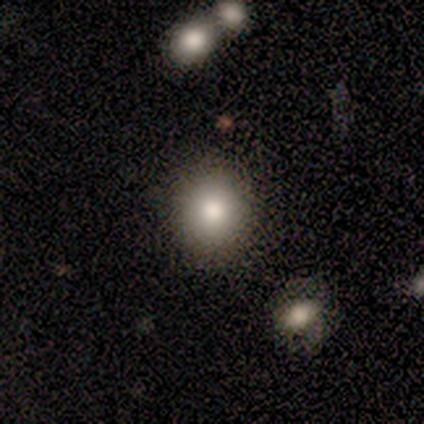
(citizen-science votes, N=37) A smooth galaxy with no disk features (76%) that is round (68%).

Vote fractions:
- Smooth or featured? smooth: 76% / featured or disk: 16% / star or artifact: 8%
- How rounded? round: 68% / in between: 32% / cigar-shaped: 0%
- Merging? none: 94% / minor disturbance: 3% / merger: 3% / major disturbance: 0%